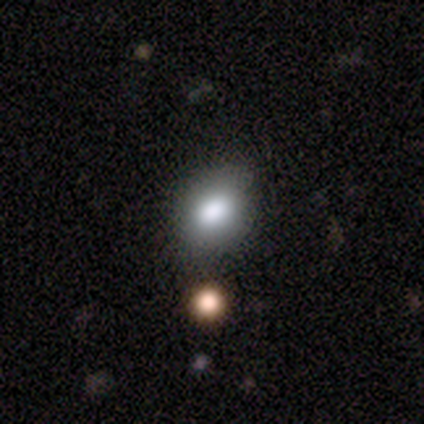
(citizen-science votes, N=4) Smooth or featured? smooth (75%)
How rounded? in between (67%)
Merging? none (100%)